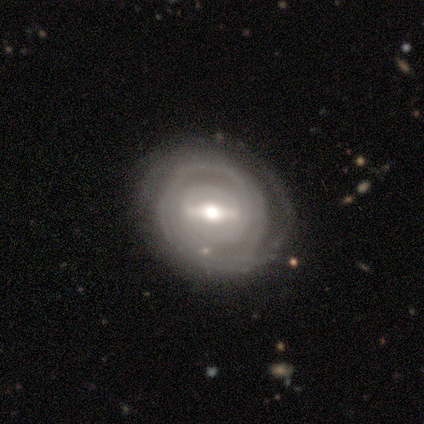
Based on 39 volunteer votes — Overall: featured or disk (85%). Edge-on disk: no (88%). Bar: strong (62%; weak 31%). Spiral arms: yes (86%). Spiral arm count: 2 (36%; can't tell 32%). Spiral winding: tight (68%). Bulge size: moderate (83%). Merging: none (75%).